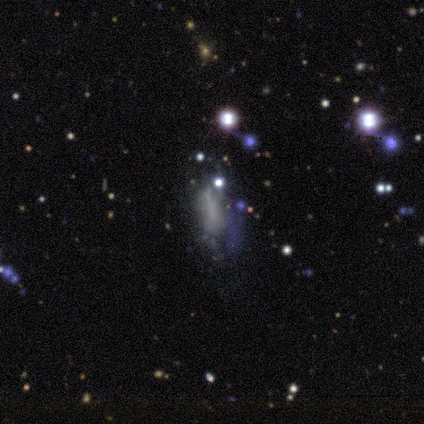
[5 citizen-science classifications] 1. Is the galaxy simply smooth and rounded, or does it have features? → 80% star or artifact, 20% smooth, 0% featured or disk.